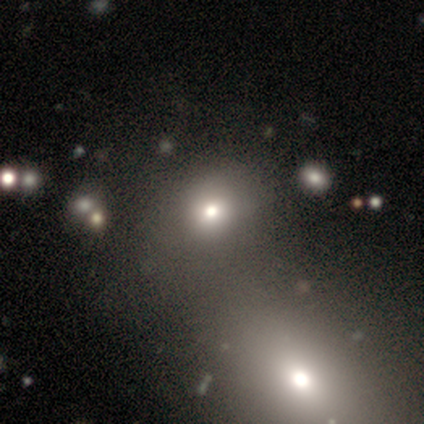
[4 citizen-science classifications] Smooth or featured? smooth (50%, tied with featured or disk)
How rounded? in between (100%)
Merging? none (50%)